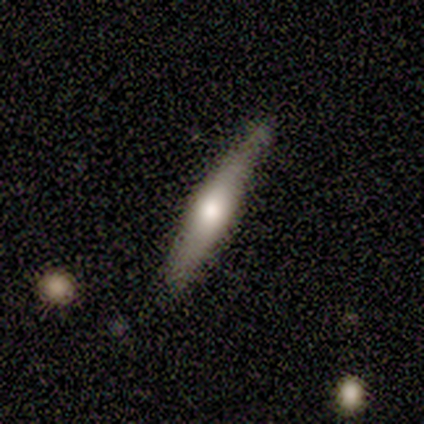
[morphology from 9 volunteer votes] A smooth galaxy with no disk features (67%) that is cigar-shaped (100%).

Vote fractions:
- Smooth or featured? smooth: 67% / featured or disk: 22% / star or artifact: 11%
- How rounded? cigar-shaped: 100% / round: 0% / in between: 0%
- Merging? none: 100% / minor disturbance: 0% / major disturbance: 0% / merger: 0%